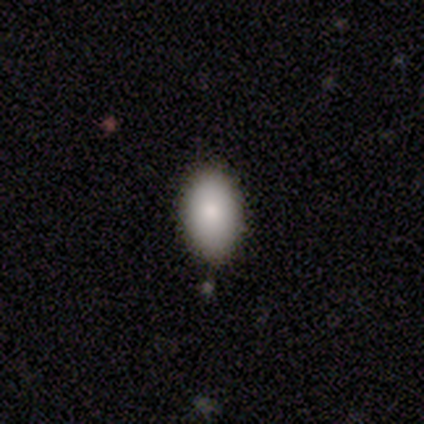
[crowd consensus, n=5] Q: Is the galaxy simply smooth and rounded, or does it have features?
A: smooth — 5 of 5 (100%).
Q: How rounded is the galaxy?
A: in between — 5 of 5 (100%).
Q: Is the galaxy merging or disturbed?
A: none — 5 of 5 (100%).